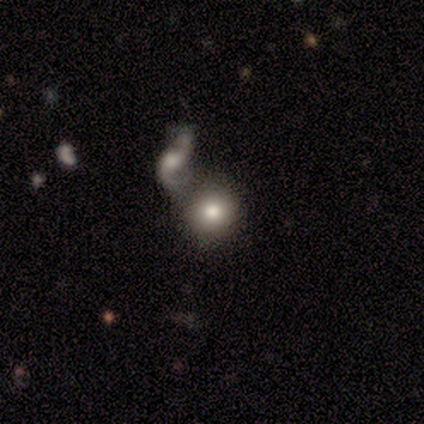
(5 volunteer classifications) smooth 60%, featured or disk 20%, star or artifact 20%. Down the decision tree: how rounded — round (67%); merging — merger (50%).